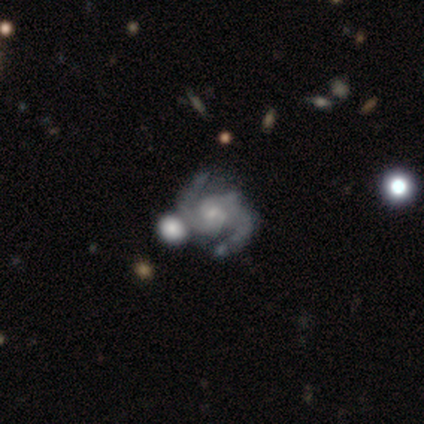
Morphology: type=featured or disk (95%); edge-on=no (100%); bar=no (59%); spiral arms=yes (100%); winding=medium (59%); arm count=2 (95%); bulge=small (62%); merging=none (49%).